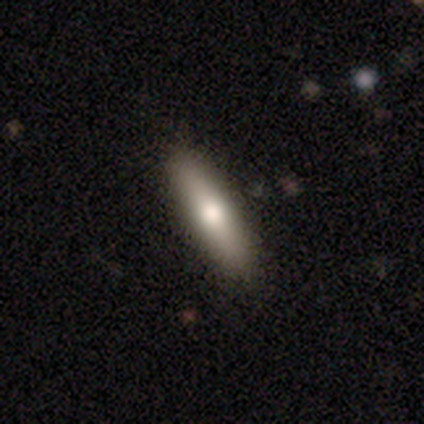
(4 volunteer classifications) Morphology: type=smooth (100%); roundness=in between (50%, tied with cigar-shaped); merging=none (75%).